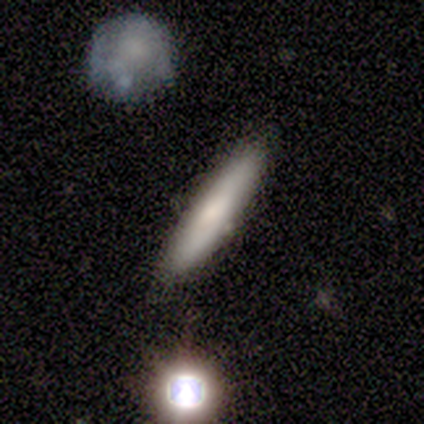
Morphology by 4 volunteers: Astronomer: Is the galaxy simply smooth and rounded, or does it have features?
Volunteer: smooth — 100%.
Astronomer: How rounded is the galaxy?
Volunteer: cigar-shaped — 75%.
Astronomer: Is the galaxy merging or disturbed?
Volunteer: none — 100%.